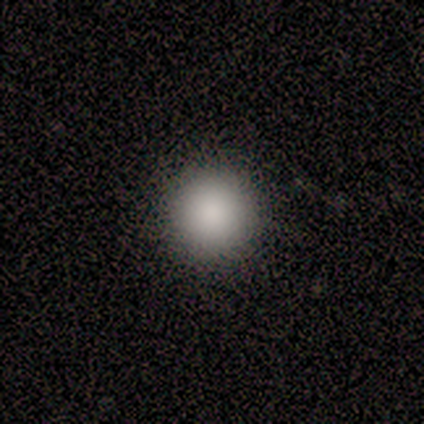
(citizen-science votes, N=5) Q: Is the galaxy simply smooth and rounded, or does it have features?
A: smooth — 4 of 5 (80%).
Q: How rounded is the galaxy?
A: round — 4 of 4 (100%).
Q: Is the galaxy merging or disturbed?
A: none — 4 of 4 (100%).